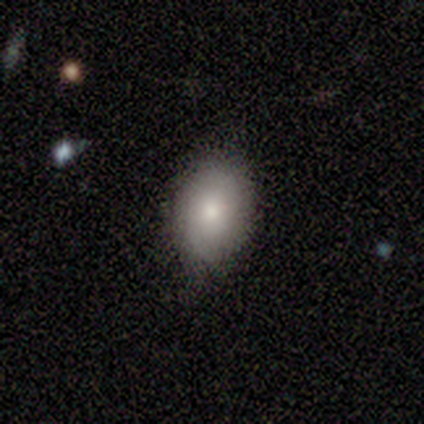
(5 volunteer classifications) This is clearly a smooth galaxy (80%). How rounded: likely in between (75%). Merging: clearly none (100%).